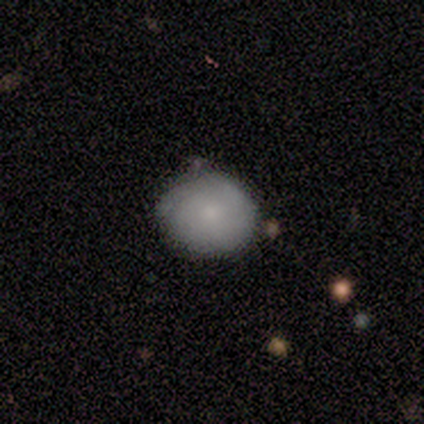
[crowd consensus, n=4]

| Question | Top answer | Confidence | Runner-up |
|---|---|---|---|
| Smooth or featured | smooth | 50% | tied: featured or disk (50%) |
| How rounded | round | 100% | — |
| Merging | none | 100% | — |